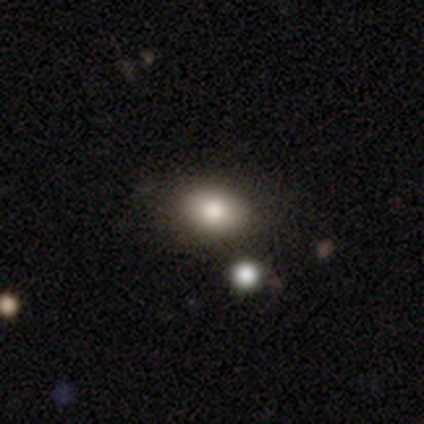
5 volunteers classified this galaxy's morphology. Volunteers were most divided on "merging": none: 75%, minor disturbance: 25%, major disturbance: 0%, merger: 0%. More confident: how rounded — in between (100%); smooth or featured — smooth (80%).